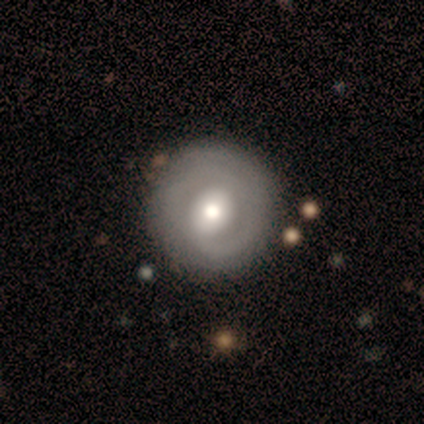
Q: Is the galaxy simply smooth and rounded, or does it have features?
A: featured or disk — 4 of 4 (100%).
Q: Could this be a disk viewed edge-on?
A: no — 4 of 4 (100%).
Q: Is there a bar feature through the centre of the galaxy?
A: weak — 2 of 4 (50%).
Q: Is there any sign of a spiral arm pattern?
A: yes — 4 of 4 (100%).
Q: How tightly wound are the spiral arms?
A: tight — 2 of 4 (50%, tied with medium).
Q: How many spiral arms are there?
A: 2 — 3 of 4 (75%).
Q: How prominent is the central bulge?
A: moderate — 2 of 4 (50%).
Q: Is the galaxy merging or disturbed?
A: none — 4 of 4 (100%).